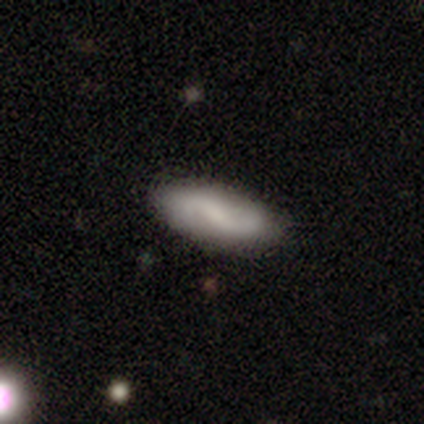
Volunteers were most divided on "smooth or featured" (2-way tie): smooth: 50%, featured or disk: 50%, star or artifact: 0%. More confident: how rounded — in between (100%); merging — minor disturbance (50%).